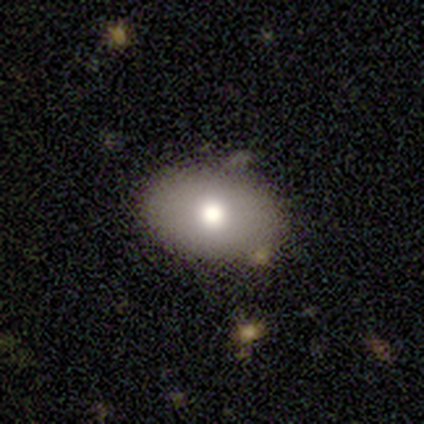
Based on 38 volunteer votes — A smooth galaxy with no disk features (82%) that is in between round and cigar-shaped (94%). Merging: none (71%).